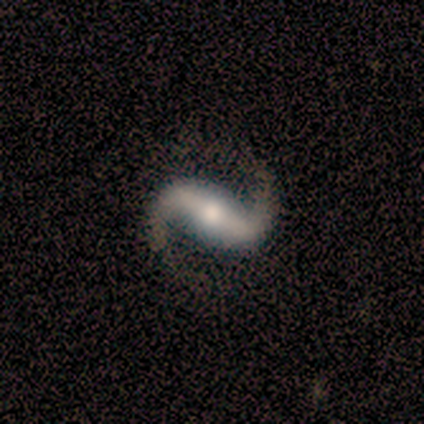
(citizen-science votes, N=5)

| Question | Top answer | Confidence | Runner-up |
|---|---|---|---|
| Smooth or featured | featured or disk | 100% | — |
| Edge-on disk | no | 100% | — |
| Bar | strong | 60% | weak (20%) |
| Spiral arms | yes | 100% | — |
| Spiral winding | medium | 60% | loose (40%) |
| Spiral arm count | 2 | 100% | — |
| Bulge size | moderate | 60% | large (20%) |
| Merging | none | 60% | major disturbance (40%) |